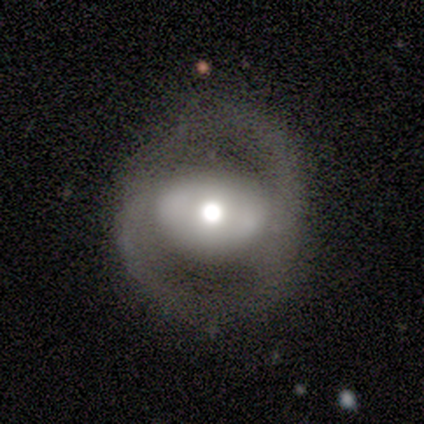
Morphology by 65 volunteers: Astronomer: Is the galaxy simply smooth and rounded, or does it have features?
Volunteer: featured or disk — 72%.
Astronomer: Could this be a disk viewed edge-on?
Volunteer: no — 98%.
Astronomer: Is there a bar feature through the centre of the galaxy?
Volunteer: no — 57%.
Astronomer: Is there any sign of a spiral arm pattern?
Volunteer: no — 59% (runner-up: yes, 41%).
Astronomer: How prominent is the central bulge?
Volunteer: moderate — 50%.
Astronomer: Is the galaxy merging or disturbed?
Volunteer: none — 58%.